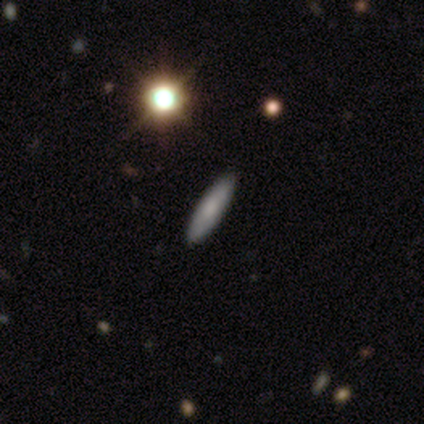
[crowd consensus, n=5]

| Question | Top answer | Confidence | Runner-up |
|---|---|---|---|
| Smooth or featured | smooth | 100% | — |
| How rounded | cigar-shaped | 80% | in between (20%) |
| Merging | none | 80% | minor disturbance (20%) |